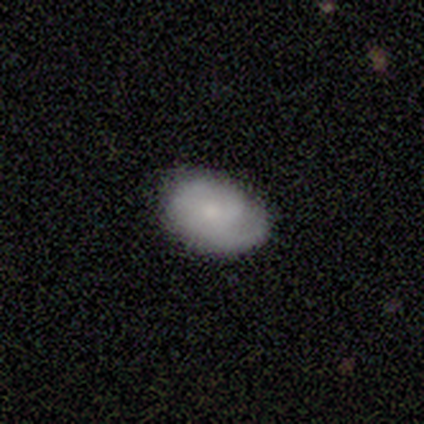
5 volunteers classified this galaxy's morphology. type=smooth (60%); roundness=in between (67%); merging=none (100%).